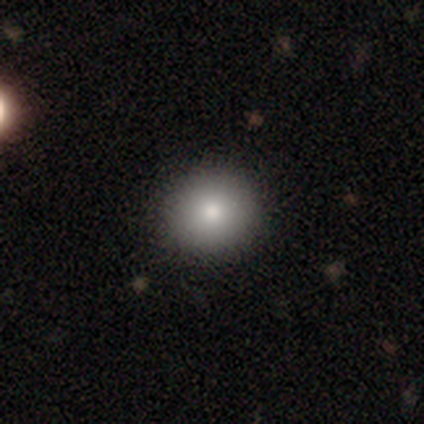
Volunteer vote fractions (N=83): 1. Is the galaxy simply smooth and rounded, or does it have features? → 92% smooth, 5% star or artifact, 4% featured or disk.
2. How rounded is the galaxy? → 89% round, 11% in between, 0% cigar-shaped.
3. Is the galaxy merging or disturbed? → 92% none, 4% minor disturbance, 3% major disturbance, 1% merger.